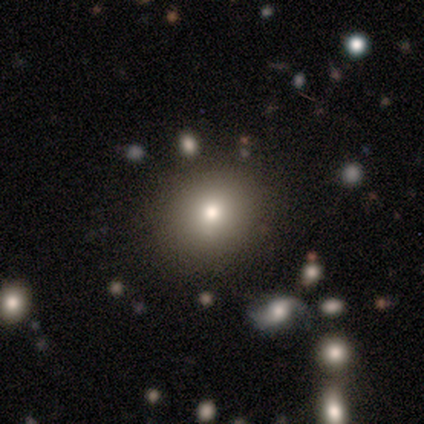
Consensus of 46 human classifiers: This appears to be a smooth galaxy with no disk features (72%) that is round (82%). Merging: none (90%).